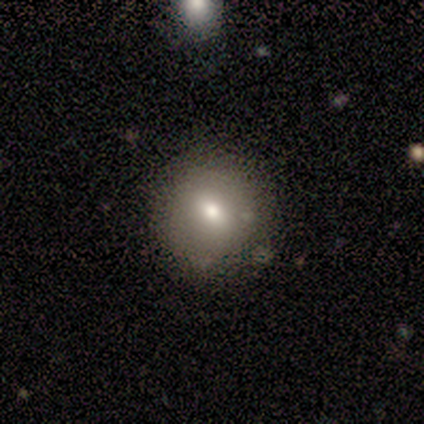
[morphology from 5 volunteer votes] type=smooth (60%); roundness=round (100%); merging=none (100%).